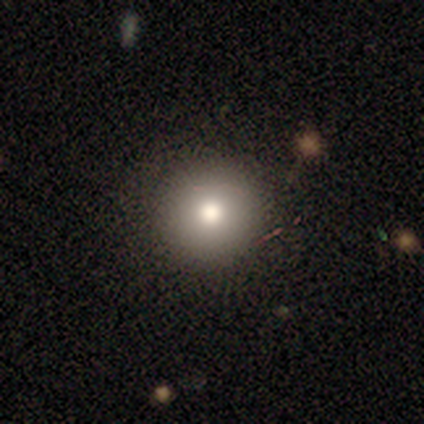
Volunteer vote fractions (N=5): Smooth or featured? smooth (100%)
How rounded? round (100%)
Merging? none (100%)